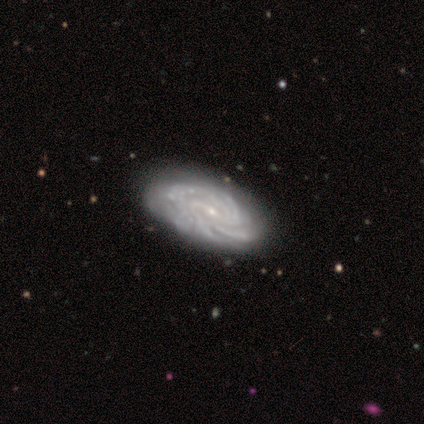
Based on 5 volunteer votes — This is clearly a featured or disk galaxy (100%). It is clearly not viewed edge-on (100%). Bar: likely weak (60%). Spiral arm pattern: clearly yes (100%). Spiral arm count: marginally more than 4 (40%). Spiral winding: likely tight (60%). Central bulge: clearly small (80%). Merging: clearly none (80%).